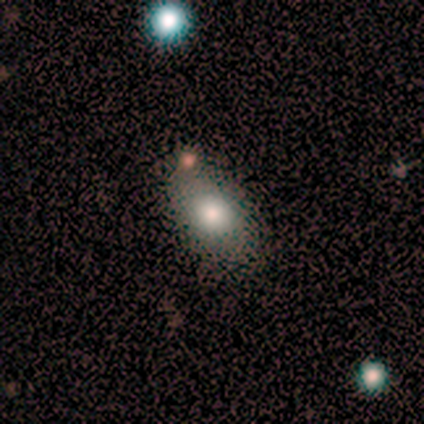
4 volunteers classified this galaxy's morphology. Overall: smooth (100%). How rounded: in between (100%). Merging: none (75%).